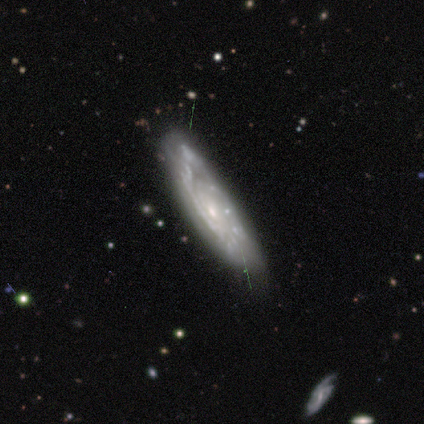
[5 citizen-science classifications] Overall: featured or disk (100%). Edge-on disk: yes (60%; no 40%). Edge-on bulge: none (100%). Merging: none (100%).